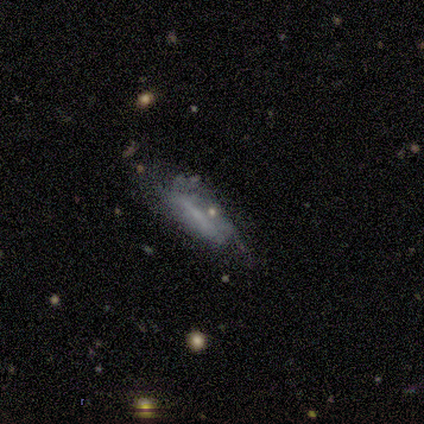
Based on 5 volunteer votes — This is clearly a featured or disk galaxy (80%). It is likely not viewed edge-on (75%). Bar: likely weak (67%). Spiral arm pattern: likely yes (67%). Spiral arm count: possibly 2 (50%, tied with can't tell). Spiral winding: possibly tight (50%, tied with medium). Central bulge: likely none (67%). Merging: likely minor disturbance (60%).